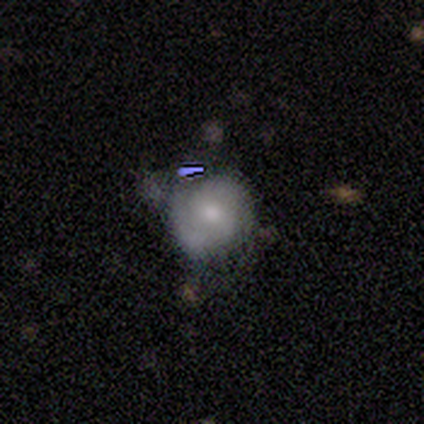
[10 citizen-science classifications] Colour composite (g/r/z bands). It shows a smooth galaxy with no disk features (60%) that is round (83%). Merging: none (44%).